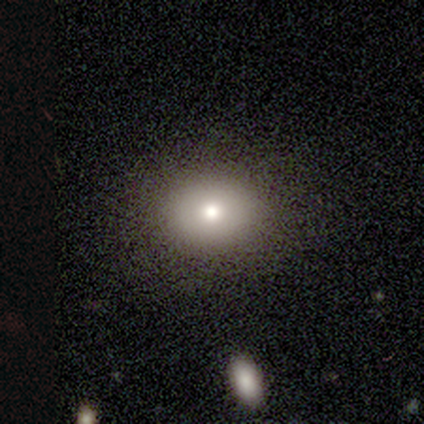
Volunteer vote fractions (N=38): smooth 71%, star or artifact 21%, featured or disk 8%. Down the decision tree: how rounded — in between (56%); merging — none (93%).